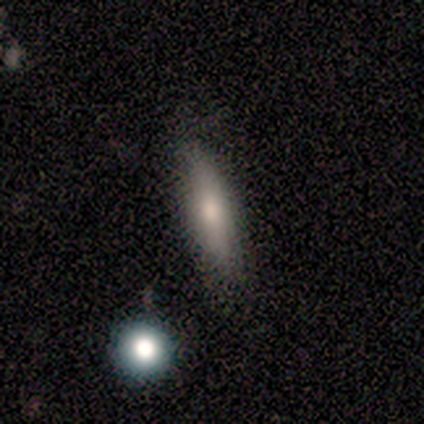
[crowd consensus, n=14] Smooth or featured? smooth (79%)
How rounded? cigar-shaped (55%)
Merging? none (57%)